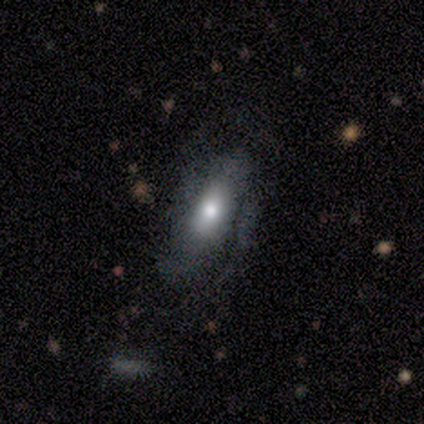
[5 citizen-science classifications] Smooth or featured? featured or disk (60%)
Edge-on disk? no (67%)
Bar? weak (50%, tied with no)
Spiral arms? yes (50%, tied with no)
Spiral winding? medium (100%)
Spiral arm count? can't tell (100%)
Bulge size? moderate (100%)
Merging? none (40%, tied with major disturbance)